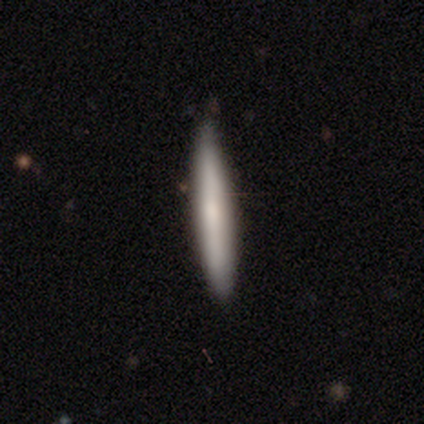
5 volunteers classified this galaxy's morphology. Smooth or featured?
  - smooth: 60% *
  - featured or disk: 40%
  - star or artifact: 0%
How rounded?
  - cigar-shaped: 100% *
  - round: 0%
  - in between: 0%
Merging?
  - none: 100% *
  - minor disturbance: 0%
  - major disturbance: 0%
  - merger: 0%